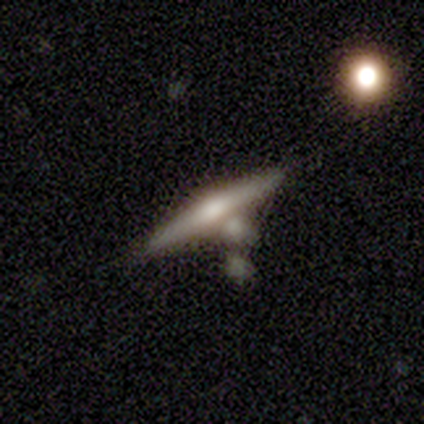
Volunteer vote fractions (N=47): Morphology: type=featured or disk (77%); edge-on=yes (97%); edge-on bulge=rounded (89%); merging=none (57%).